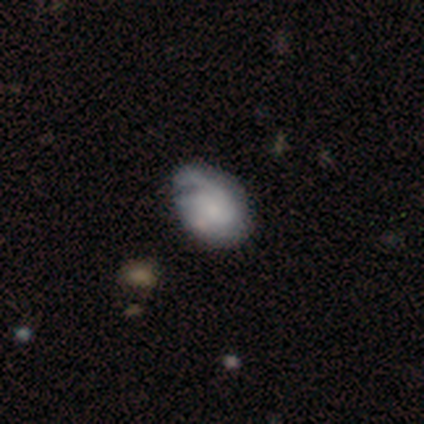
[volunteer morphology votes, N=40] A featured or disk galaxy (60%) with no bar (86%), 2 (62%) tight (54%) spiral arms (59%) and no central bulge (45%). Merging: none (49%).